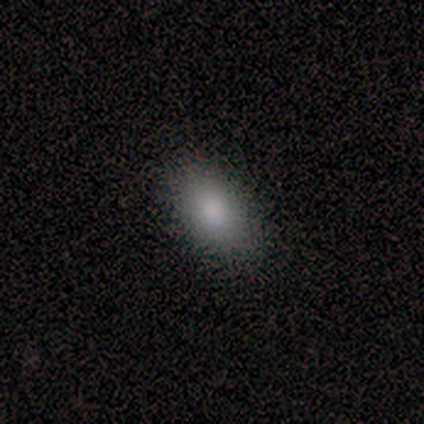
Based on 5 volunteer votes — smooth-or-featured: star or artifact: 60% | smooth: 40% | featured or disk: 0%